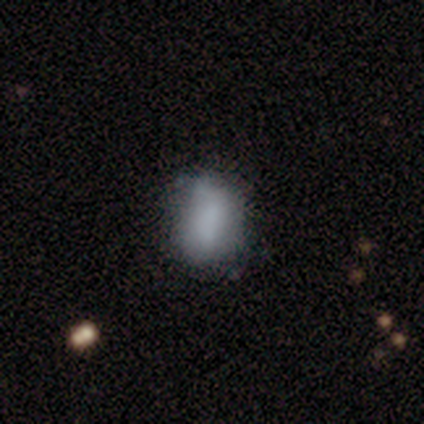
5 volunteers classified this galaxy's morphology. Smooth or featured? smooth (100%)
How rounded? in between (100%)
Merging? none (60%)